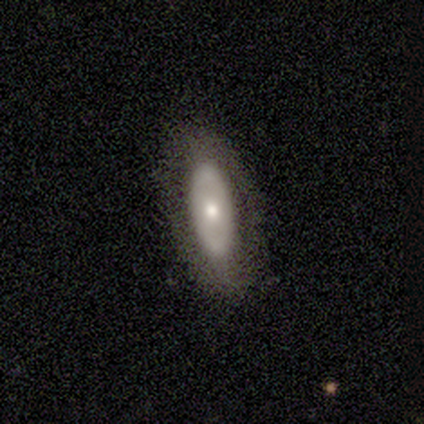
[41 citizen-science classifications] Smooth or featured: featured or disk — 56% (smooth — 37%)
Edge-on disk: no — 70% (yes — 30%)
Bar: no — 81% (strong — 12%)
Spiral arms: no — 81% (yes — 19%)
Bulge size: moderate — 44% (small — 38%)
Merging: none — 74% (minor disturbance — 18%)